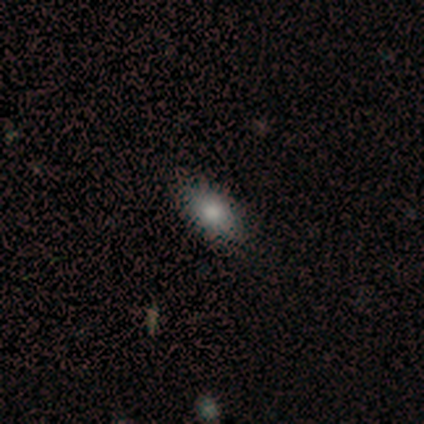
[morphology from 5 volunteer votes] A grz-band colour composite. It shows a featured or disk galaxy (60%) with no bar (100%), no spiral arms (100%) and a large central bulge (33%, tied with moderate and small). Merging: none (80%).